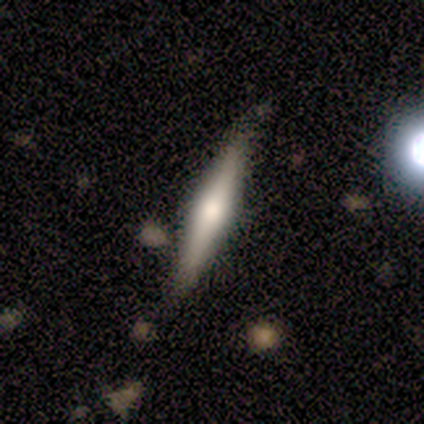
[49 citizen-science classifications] Volunteers were most divided on "smooth or featured": featured or disk: 59%, smooth: 37%, star or artifact: 4%. More confident: edge-on disk — yes (93%); edge-on bulge — rounded (85%); merging — none (81%).